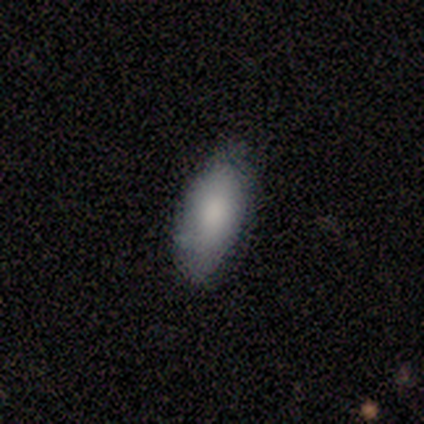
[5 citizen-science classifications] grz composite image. It shows a smooth galaxy with no disk features (80%) that is in between round and cigar-shaped (100%). Merging: none (80%).